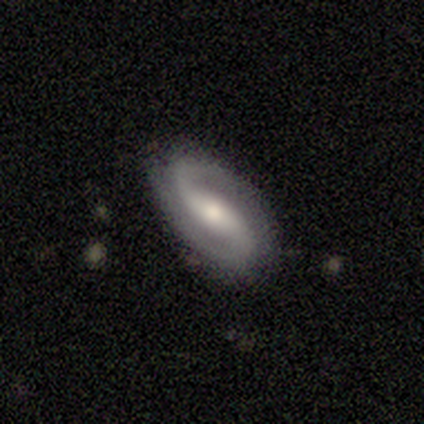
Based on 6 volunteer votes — featured or disk 100%, smooth 0%, star or artifact 0%. Down the decision tree: edge-on disk — no (83%); bar — strong (60%); spiral arms — yes (80%); spiral arm count — 2 (100%); spiral winding — tight (50%, tied with loose); bulge size — moderate (60%); merging — none (100%).